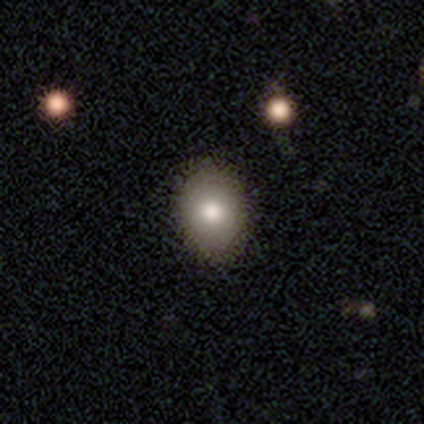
Q: Smooth or featured?
A: smooth (79%); runner-up: featured or disk (13%)
Q: How rounded?
A: in between (57%); runner-up: round (43%)
Q: Merging?
A: none (74%); runner-up: minor disturbance (6%)